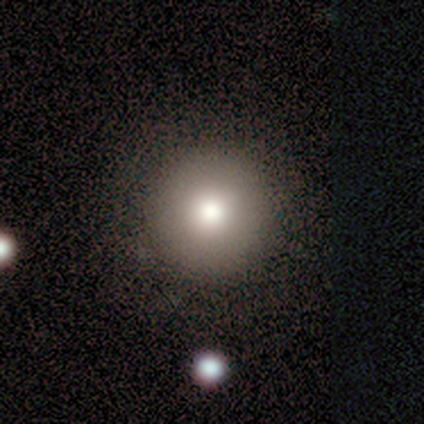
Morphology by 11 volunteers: Q: Smooth or featured?
A: smooth (82%); runner-up: star or artifact (18%)
Q: How rounded?
A: round (100%)
Q: Merging?
A: none (89%); runner-up: major disturbance (11%)